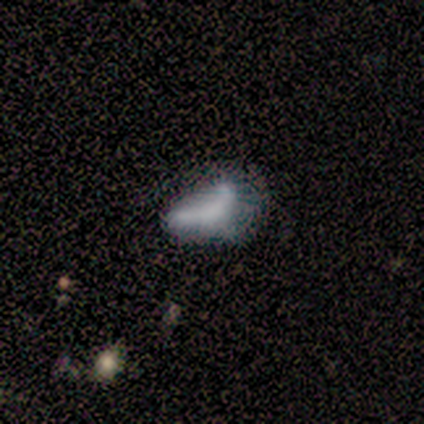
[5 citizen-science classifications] Volunteers were most divided on "merging" (2-way tie): minor disturbance: 40%, merger: 40%, none: 20%, major disturbance: 0%. More confident: edge-on disk — no (100%); bar — no (100%); spiral arms — no (100%); bulge size — none (100%); smooth or featured — featured or disk (60%).